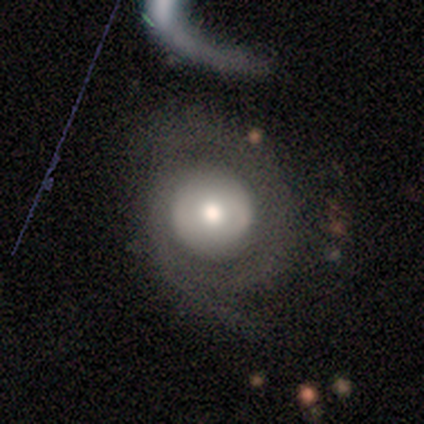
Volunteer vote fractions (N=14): Smooth or featured? featured or disk (50%)
Edge-on disk? no (86%)
Bar? no (100%)
Spiral arms? no (67%)
Bulge size? large (50%, tied with moderate)
Merging? none (50%)